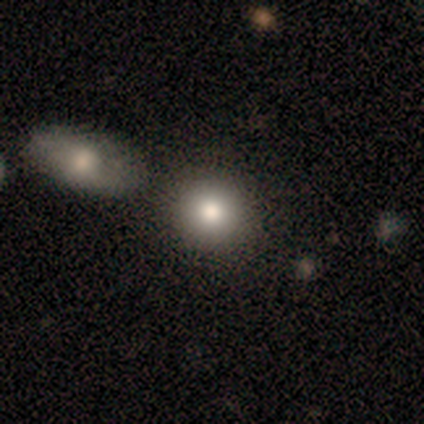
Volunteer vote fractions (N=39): This appears to be a smooth galaxy with no disk features (79%) that is round (90%). Merging: none (68%).